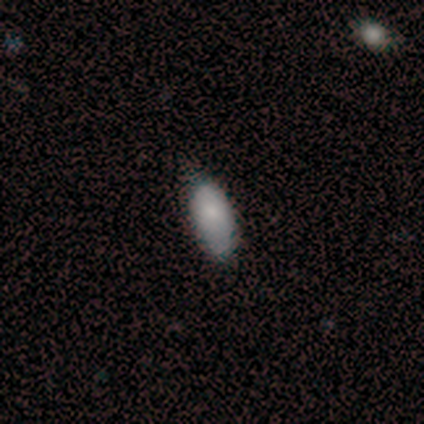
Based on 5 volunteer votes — Q: Smooth or featured?
A: smooth (80%); runner-up: featured or disk (20%)
Q: How rounded?
A: in between (100%)
Q: Merging?
A: minor disturbance (80%); runner-up: none (20%)